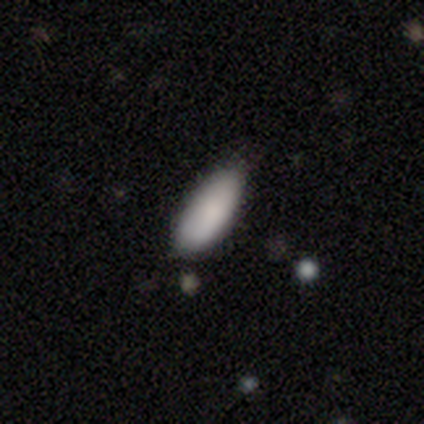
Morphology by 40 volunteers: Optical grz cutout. It shows a smooth galaxy with no disk features (95%) that is in between round and cigar-shaped (89%). Merging: none (68%).